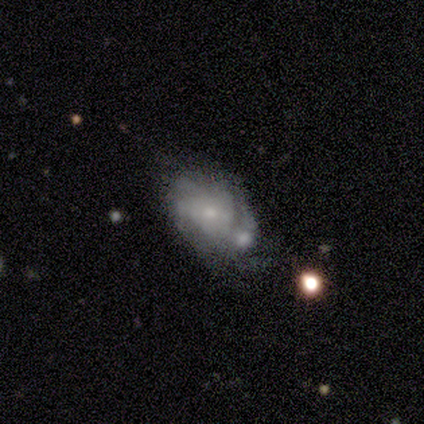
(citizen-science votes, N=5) Morphology: type=featured or disk (60%); edge-on=no (100%); bar=no (100%); spiral arms=yes (100%); winding=medium (67%); arm count=can't tell (67%); bulge=small (67%); merging=minor disturbance (40%).